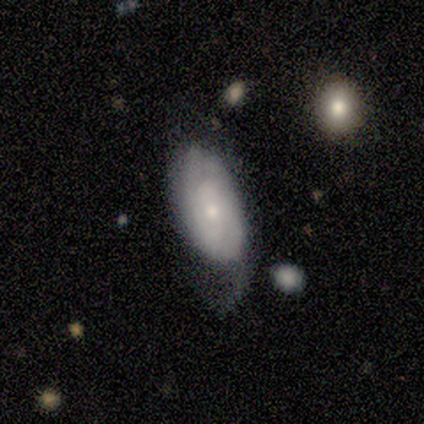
A featured or disk galaxy (100%) with no bar (100%), no spiral arms (67%) and a dominant central bulge (33%, tied with small and none).

Vote fractions:
- Smooth or featured? featured or disk: 100% / smooth: 0% / star or artifact: 0%
- Edge-on disk? no: 75% / yes: 25%
- Bar? no: 100% / strong: 0% / weak: 0%
- Spiral arms? no: 67% / yes: 33%
- Bulge size? dominant: 33% (tied) / small: 33% (tied) / none: 33% (tied) / large: 0% / moderate: 0%
- Merging? major disturbance: 50% / none: 25% / merger: 25% / minor disturbance: 0%